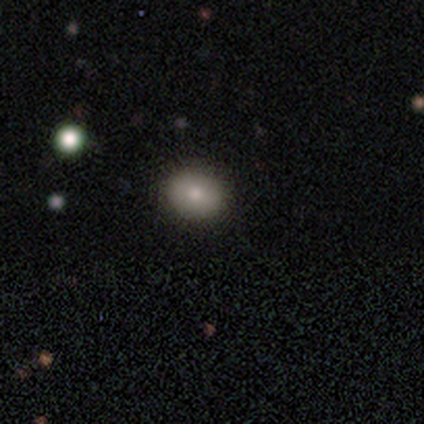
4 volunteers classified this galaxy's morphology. Smooth or featured: smooth — 75% (star or artifact — 25%)
How rounded: round — 67% (in between — 33%)
Merging: minor disturbance — 67% (none — 33%)